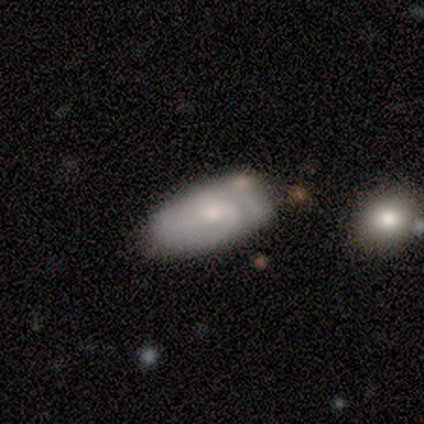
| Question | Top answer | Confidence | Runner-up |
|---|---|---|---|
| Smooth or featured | smooth | 60% | featured or disk (40%) |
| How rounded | in between | 100% | — |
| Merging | none | 60% | minor disturbance (40%) |